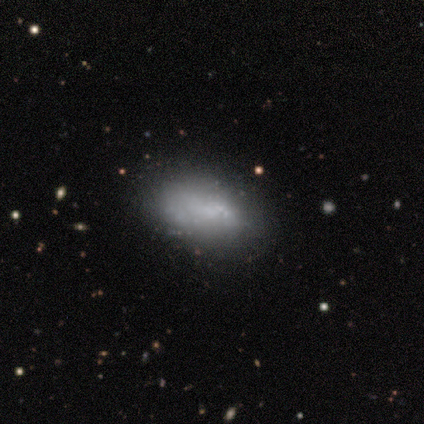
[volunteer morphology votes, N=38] smooth 53%, featured or disk 39%, star or artifact 8%. Down the decision tree: how rounded — in between (90%); merging — none (57%).